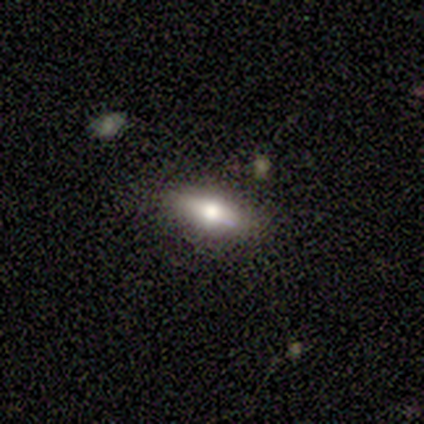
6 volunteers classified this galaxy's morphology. Overall: smooth (67%; featured or disk 33%). How rounded: in between (75%). Merging: none (100%).